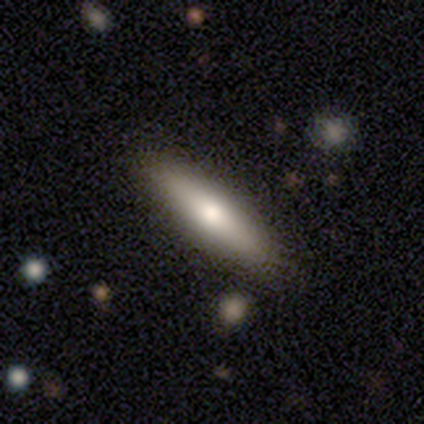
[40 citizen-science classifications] Q: Smooth or featured?
A: smooth (62%); runner-up: featured or disk (32%)
Q: How rounded?
A: cigar-shaped (76%); runner-up: in between (24%)
Q: Merging?
A: none (89%); runner-up: minor disturbance (11%)